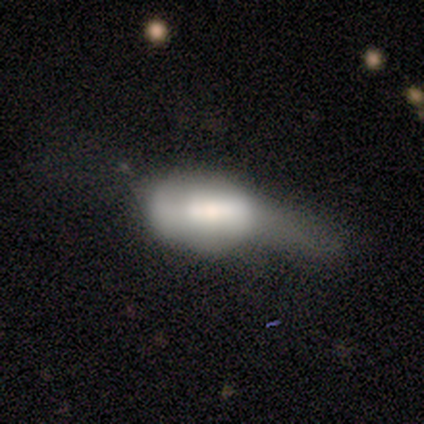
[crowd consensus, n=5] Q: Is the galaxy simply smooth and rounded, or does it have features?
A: smooth — 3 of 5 (60%).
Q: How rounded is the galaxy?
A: in between — 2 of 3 (67%).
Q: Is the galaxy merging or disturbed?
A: major disturbance — 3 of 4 (75%).